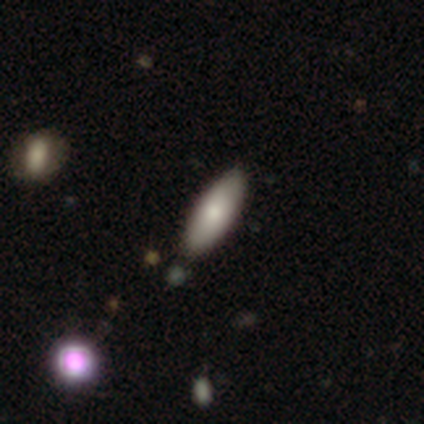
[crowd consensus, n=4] Volunteers were most divided on "how rounded": in between: 67%, cigar-shaped: 33%, round: 0%. More confident: smooth or featured — smooth (75%); merging — none (67%).